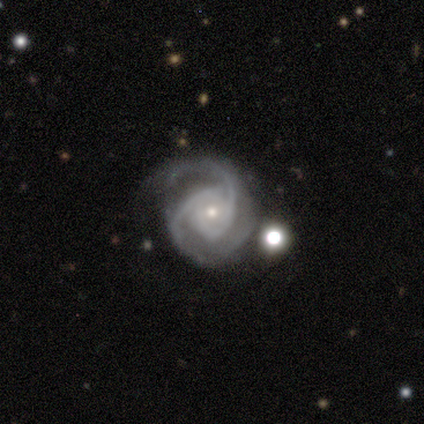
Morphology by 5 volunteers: A featured or disk galaxy (100%) with no bar (60%), 2 (40%, tied with can't tell) tight (40%, tied with medium) spiral arms (100%) and a small central bulge (80%). Merging: none (40%, tied with minor disturbance).